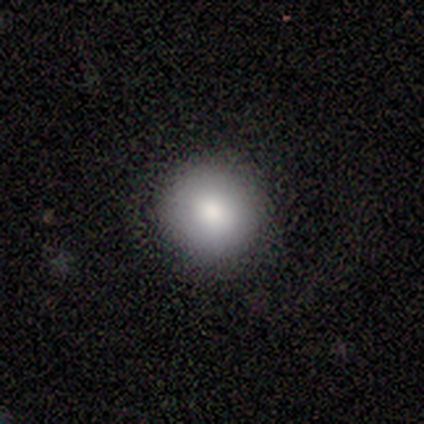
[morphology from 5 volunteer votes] smooth-or-featured: smooth: 100% | featured or disk: 0% | star or artifact: 0%
  how-rounded: round: 100% | in between: 0% | cigar-shaped: 0%
  merging: none: 80% | minor disturbance: 20% | major disturbance: 0% | merger: 0%